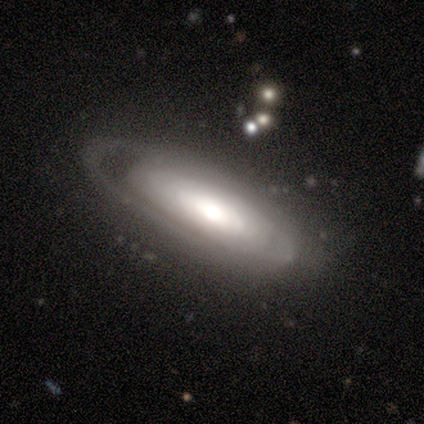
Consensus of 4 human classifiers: Overall: smooth (50%, tied with featured or disk). How rounded: in between (50%, tied with cigar-shaped). Merging: none (100%).